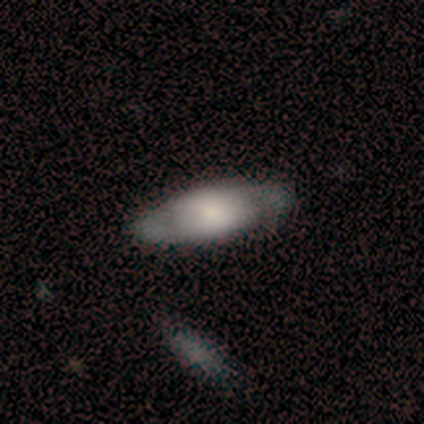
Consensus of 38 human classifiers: Smooth or featured? featured or disk (68%)
Edge-on disk? no (88%)
Bar? no (91%)
Spiral arms? yes (74%)
Spiral winding? tight (53%)
Spiral arm count? 2 (82%)
Bulge size? large (52%)
Merging? none (83%)